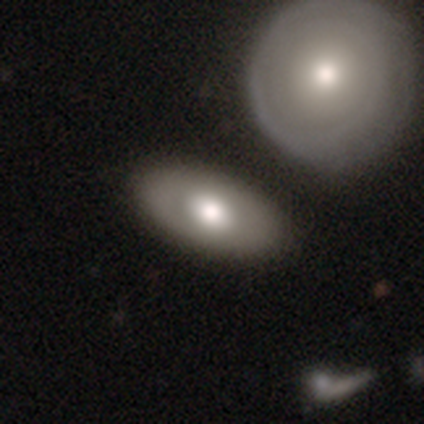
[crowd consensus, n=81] smooth 54%, featured or disk 36%, star or artifact 10%. Down the decision tree: how rounded — in between (86%); merging — none (32%).